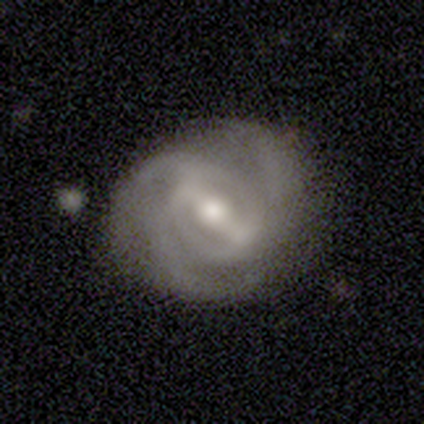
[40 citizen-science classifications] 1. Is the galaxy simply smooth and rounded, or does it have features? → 90% featured or disk, 8% star or artifact, 2% smooth.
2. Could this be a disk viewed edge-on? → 97% no, 3% yes.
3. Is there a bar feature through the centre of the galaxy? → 57% strong, 37% weak, 6% no.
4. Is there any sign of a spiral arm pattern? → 94% yes, 6% no.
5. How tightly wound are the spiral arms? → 45% tight, 42% medium, 12% loose.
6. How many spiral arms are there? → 58% 3, 18% can't tell, 15% 2, 6% 4, 3% more than 4, 0% 1.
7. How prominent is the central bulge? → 69% moderate, 17% small, 14% large, 0% dominant, 0% none.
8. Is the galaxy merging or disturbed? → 70% none, 19% minor disturbance, 5% major disturbance, 5% merger.